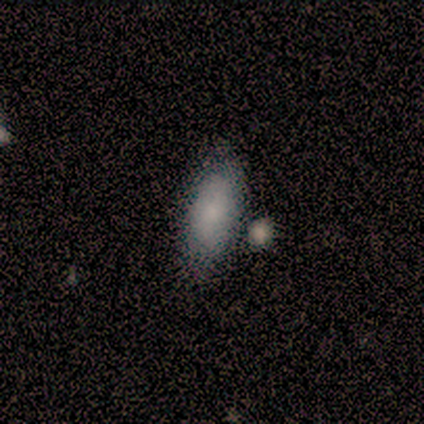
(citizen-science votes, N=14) Smooth or featured?
  - smooth: 100% *
  - featured or disk: 0%
  - star or artifact: 0%
How rounded?
  - in between: 86% *
  - cigar-shaped: 14%
  - round: 0%
Merging?
  - none: 79% *
  - minor disturbance: 14%
  - merger: 7%
  - major disturbance: 0%